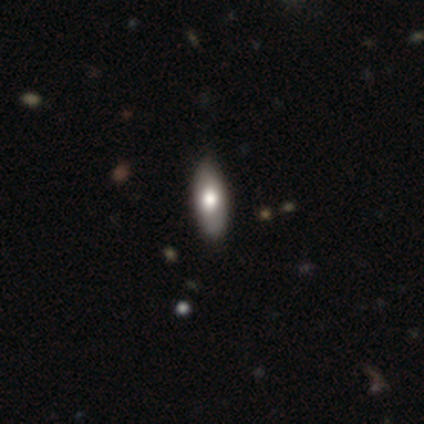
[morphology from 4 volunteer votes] A smooth galaxy with no disk features (50%, tied with star or artifact) that is in between round and cigar-shaped (100%).

Vote fractions:
- Smooth or featured? smooth: 50% (tied) / star or artifact: 50% (tied) / featured or disk: 0%
- How rounded? in between: 100% / round: 0% / cigar-shaped: 0%
- Merging? none: 100% / minor disturbance: 0% / major disturbance: 0% / merger: 0%